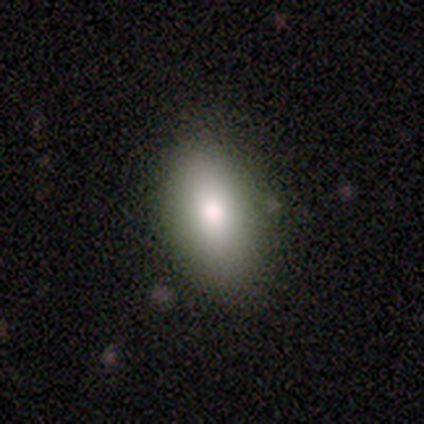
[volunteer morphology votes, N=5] Volunteers were most divided on "how rounded": in between: 75%, cigar-shaped: 25%, round: 0%. More confident: smooth or featured — smooth (80%); merging — none (75%).